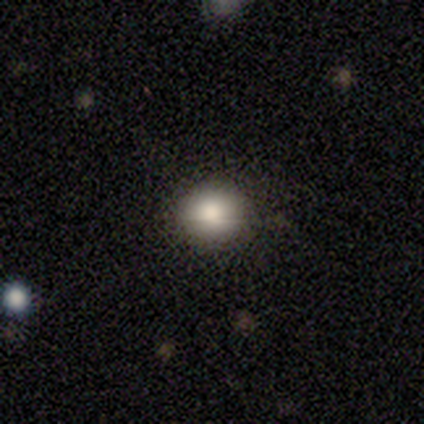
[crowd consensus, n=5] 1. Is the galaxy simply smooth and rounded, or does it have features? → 80% smooth, 20% star or artifact, 0% featured or disk.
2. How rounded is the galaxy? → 100% round, 0% in between, 0% cigar-shaped.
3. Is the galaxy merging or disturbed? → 75% none, 25% major disturbance, 0% minor disturbance, 0% merger.